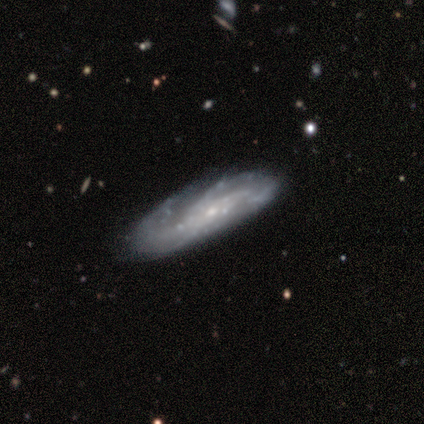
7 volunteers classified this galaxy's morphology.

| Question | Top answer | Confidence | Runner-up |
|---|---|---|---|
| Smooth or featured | featured or disk | 100% | — |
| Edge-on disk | no | 100% | — |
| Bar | no | 71% | strong (29%) |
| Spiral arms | yes | 100% | — |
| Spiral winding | medium | 71% | tight (14%) |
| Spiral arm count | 2 | 29% | tied: 3 (29%), can't tell (29%) |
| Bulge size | small | 86% | moderate (14%) |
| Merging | none | 71% | minor disturbance (29%) |